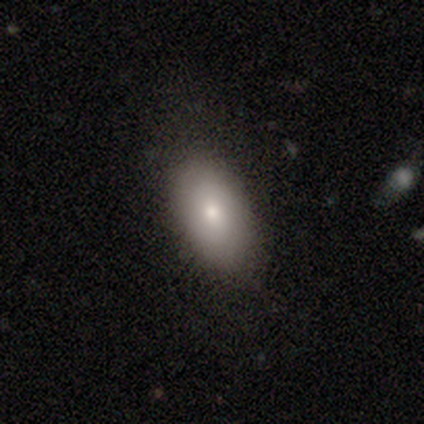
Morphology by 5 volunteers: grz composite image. It shows a smooth galaxy with no disk features (80%) that is in between round and cigar-shaped (75%). Merging: none (50%).